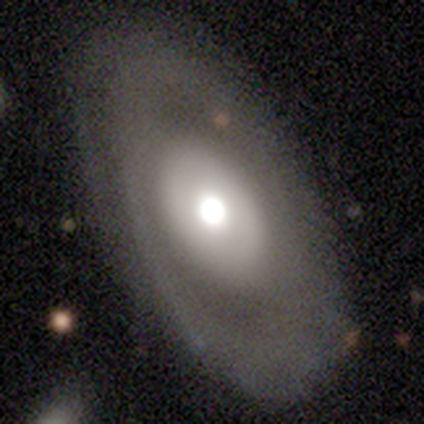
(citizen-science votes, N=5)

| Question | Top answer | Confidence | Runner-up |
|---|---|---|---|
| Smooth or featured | smooth | 60% | featured or disk (40%) |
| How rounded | in between | 100% | — |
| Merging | none | 80% | minor disturbance (20%) |